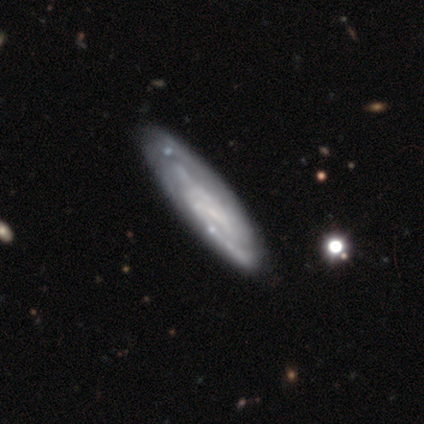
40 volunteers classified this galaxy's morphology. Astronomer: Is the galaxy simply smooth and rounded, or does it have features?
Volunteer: featured or disk — 90%.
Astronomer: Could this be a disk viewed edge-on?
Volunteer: no — 72%.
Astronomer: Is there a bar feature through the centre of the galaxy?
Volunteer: weak — 46% (runner-up: no, 35%).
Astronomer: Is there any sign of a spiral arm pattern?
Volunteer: yes — 85%.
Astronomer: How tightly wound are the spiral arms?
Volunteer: tight — 59%.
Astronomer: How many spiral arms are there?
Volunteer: can't tell — 64%.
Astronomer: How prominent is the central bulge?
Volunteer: none — 46% (runner-up: small, 42%).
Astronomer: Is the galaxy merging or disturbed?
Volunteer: none — 52%.